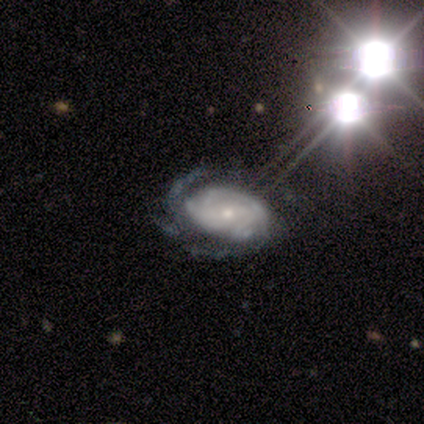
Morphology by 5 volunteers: Smooth or featured?
  - featured or disk: 60% *
  - smooth: 20%
  - star or artifact: 20%
Edge-on disk?
  - no: 100% *
  - yes: 0%
Bar?
  - no: 67% *
  - weak: 33%
  - strong: 0%
Spiral arms?
  - yes: 100% *
  - no: 0%
Spiral winding?
  - tight: 33% * (tied)
  - medium: 33% * (tied)
  - loose: 33% * (tied)
Spiral arm count?
  - can't tell: 67% *
  - more than 4: 33%
  - 1: 0%
  - 2: 0%
  - 3: 0%
  - 4: 0%
Bulge size?
  - small: 67% *
  - moderate: 33%
  - dominant: 0%
  - large: 0%
  - none: 0%
Merging?
  - none: 75% *
  - minor disturbance: 25%
  - major disturbance: 0%
  - merger: 0%